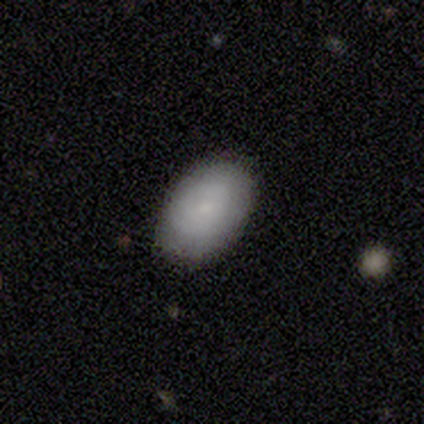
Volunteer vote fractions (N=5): Smooth or featured? 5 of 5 (100%) said smooth. How rounded? 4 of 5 (80%) said in between. Merging? 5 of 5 (100%) said none.